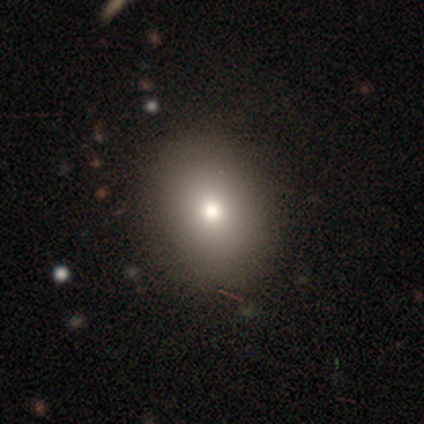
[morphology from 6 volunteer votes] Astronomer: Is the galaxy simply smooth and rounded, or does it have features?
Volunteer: smooth — 67%.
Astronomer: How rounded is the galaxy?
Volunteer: in between — 100%.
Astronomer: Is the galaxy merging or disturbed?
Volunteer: none — 100%.